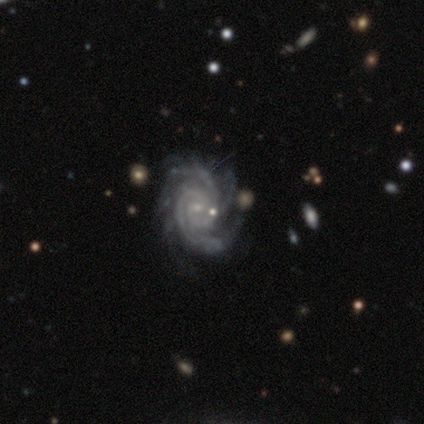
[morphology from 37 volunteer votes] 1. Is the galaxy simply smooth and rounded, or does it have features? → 89% featured or disk, 5% smooth, 5% star or artifact.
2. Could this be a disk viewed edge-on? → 100% no, 0% yes.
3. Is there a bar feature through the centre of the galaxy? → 67% no, 21% weak, 12% strong.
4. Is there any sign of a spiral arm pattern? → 100% yes, 0% no.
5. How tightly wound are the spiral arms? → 73% tight, 21% medium, 6% loose.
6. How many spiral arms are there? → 48% 3, 15% 2, 15% 4, 12% more than 4, 9% can't tell, 0% 1.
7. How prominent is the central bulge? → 82% small, 15% moderate, 3% none, 0% dominant, 0% large.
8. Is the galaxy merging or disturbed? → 77% none, 11% minor disturbance, 6% major disturbance, 6% merger.